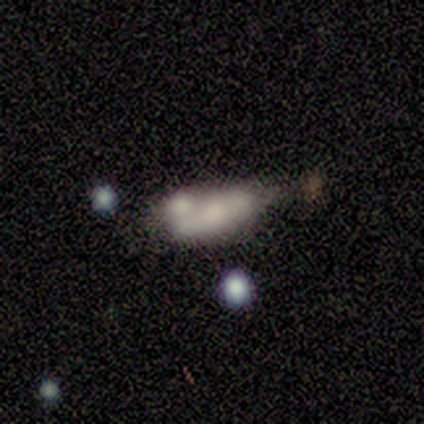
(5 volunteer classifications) Smooth or featured?
  - smooth: 100% *
  - featured or disk: 0%
  - star or artifact: 0%
How rounded?
  - in between: 80% *
  - cigar-shaped: 20%
  - round: 0%
Merging?
  - merger: 60% *
  - none: 20%
  - major disturbance: 20%
  - minor disturbance: 0%